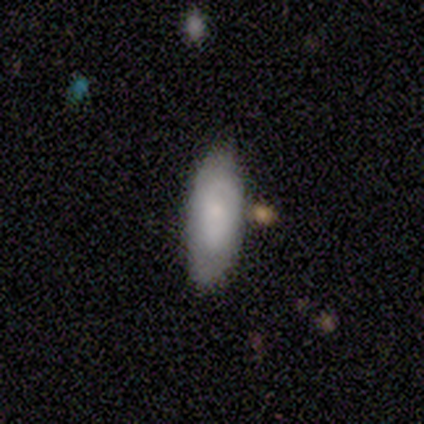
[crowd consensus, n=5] A smooth galaxy with no disk features (80%) that is in between round and cigar-shaped (100%).

Vote fractions:
- Smooth or featured? smooth: 80% / featured or disk: 20% / star or artifact: 0%
- How rounded? in between: 100% / round: 0% / cigar-shaped: 0%
- Merging? none: 80% / major disturbance: 20% / minor disturbance: 0% / merger: 0%